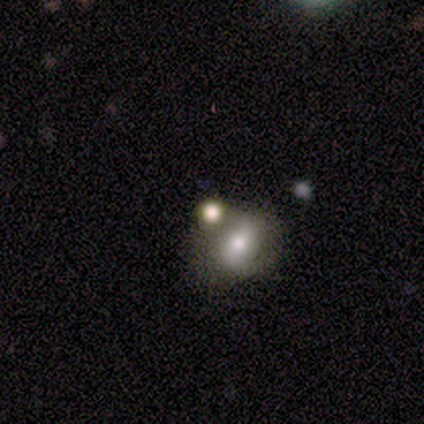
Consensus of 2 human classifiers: Overall: star or artifact (100%).